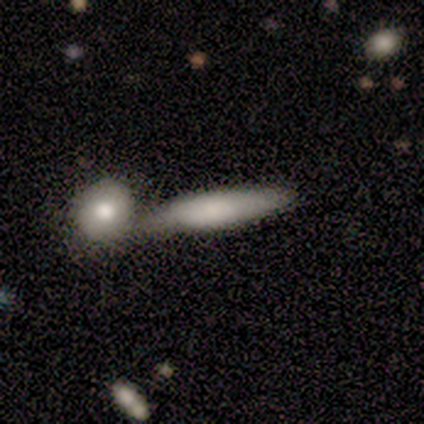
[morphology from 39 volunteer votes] smooth-or-featured: smooth: 77% | featured or disk: 23% | star or artifact: 0%
  how-rounded: cigar-shaped: 83% | in between: 17% | round: 0%
  merging: merger: 44% | none: 33% | minor disturbance: 18% | major disturbance: 5%